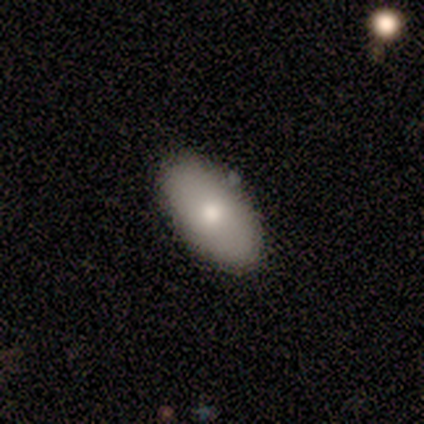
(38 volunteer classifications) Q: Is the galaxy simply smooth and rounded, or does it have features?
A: smooth — 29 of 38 (76%).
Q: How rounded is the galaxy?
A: in between — 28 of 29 (97%).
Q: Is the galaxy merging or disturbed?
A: none — 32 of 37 (86%).